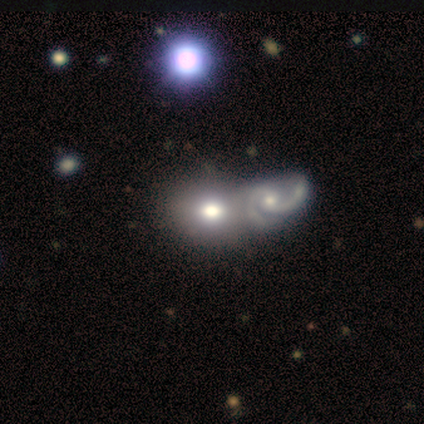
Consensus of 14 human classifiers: This appears to be a smooth galaxy with no disk features (57%) that is in between round and cigar-shaped (62%). Merging: merger (79%).